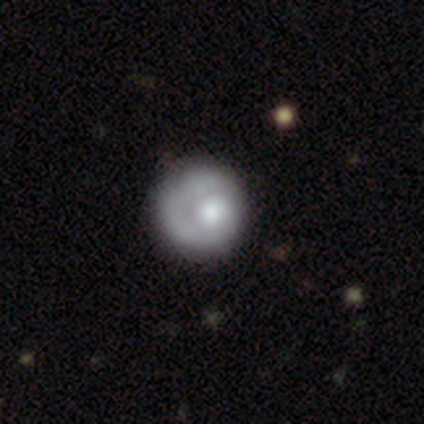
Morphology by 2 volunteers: Overall: featured or disk (100%). Edge-on disk: no (100%). Bar: no (100%). Spiral arms: yes (100%). Spiral arm count: 1 (100%). Spiral winding: tight (100%). Bulge size: moderate (50%, tied with none). Merging: none (100%).